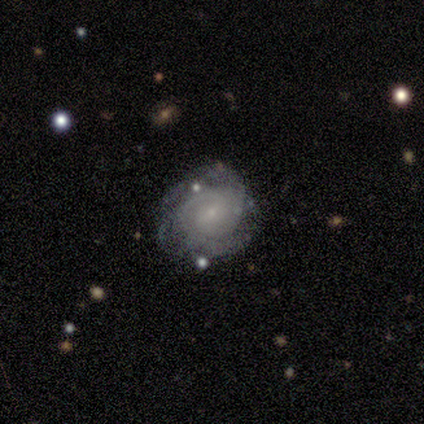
A featured or disk galaxy (50%) with a weak bar (50%, tied with no), 2 (50%, tied with can't tell) medium (100%) spiral arms (100%) and a small central bulge (100%). Merging: none (67%).